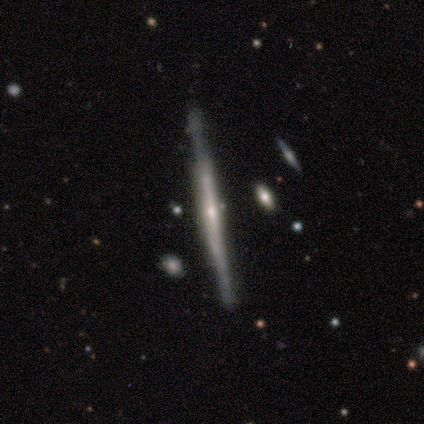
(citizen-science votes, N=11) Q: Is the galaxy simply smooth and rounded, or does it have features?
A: featured or disk — 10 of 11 (91%).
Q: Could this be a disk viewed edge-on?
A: yes — 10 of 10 (100%).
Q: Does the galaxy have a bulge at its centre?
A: boxy — 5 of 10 (50%).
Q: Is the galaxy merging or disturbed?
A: none — 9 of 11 (82%).